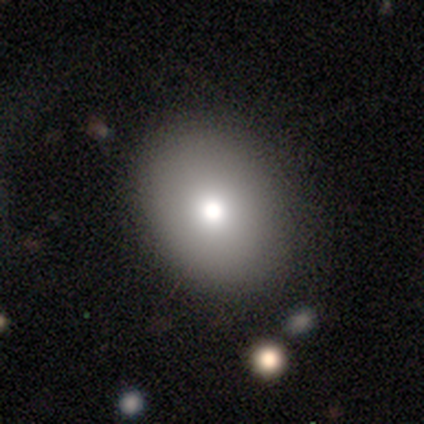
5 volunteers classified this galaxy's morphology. Smooth or featured?
  - smooth: 100% *
  - featured or disk: 0%
  - star or artifact: 0%
How rounded?
  - round: 60% *
  - in between: 40%
  - cigar-shaped: 0%
Merging?
  - none: 80% *
  - minor disturbance: 20%
  - major disturbance: 0%
  - merger: 0%